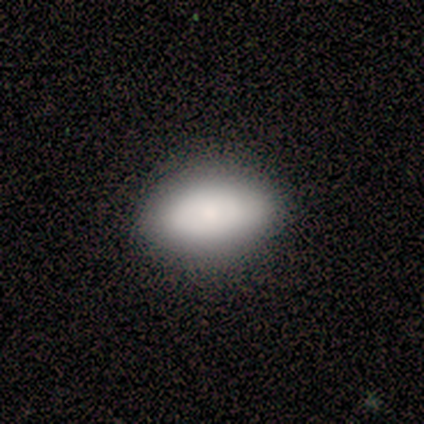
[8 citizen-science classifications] This is clearly a smooth galaxy (88%). How rounded: clearly in between (100%). Merging: likely none (75%).